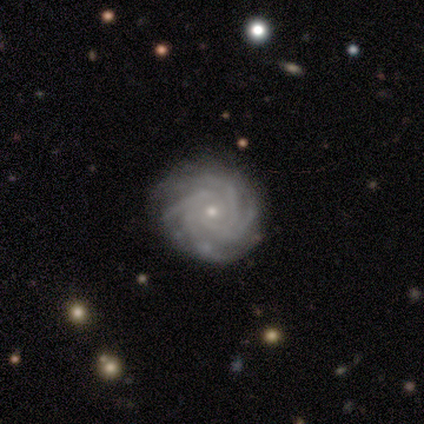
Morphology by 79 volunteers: Volunteers were most divided on "spiral arm count": 4: 55%, more than 4: 29%, can't tell: 9%, 2: 4%, 3: 3%, 1: 0%. Remaining: spiral arms — yes (100%); edge-on disk — no (99%); smooth or featured — featured or disk (97%); bar — no (84%); spiral winding — tight (80%); bulge size — small (72%); merging — none (46%).